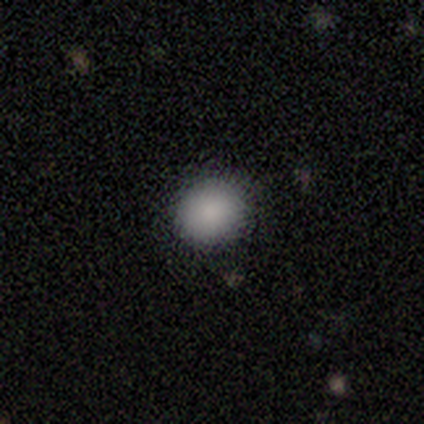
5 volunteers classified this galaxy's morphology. Smooth or featured? 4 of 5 (80%) said smooth. How rounded? 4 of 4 (100%) said round. Merging? 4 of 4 (100%) said none.